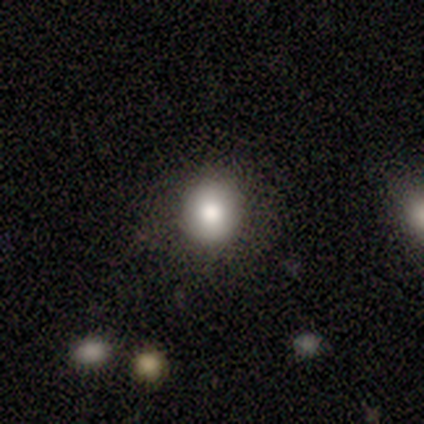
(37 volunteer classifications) Morphology: type=smooth (76%); roundness=round (82%); merging=none (79%).